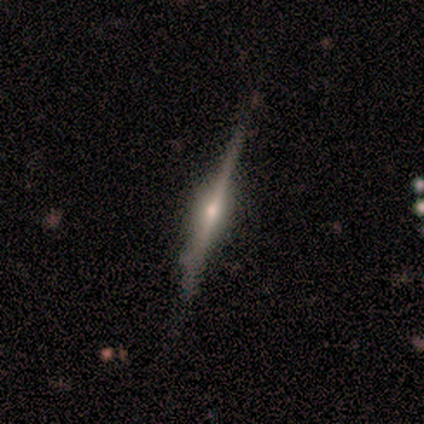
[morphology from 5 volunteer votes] Smooth or featured? 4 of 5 (80%) said featured or disk. Edge-on disk? 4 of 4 (100%) said yes. Edge-on bulge? 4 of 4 (100%) said rounded. Merging? 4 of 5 (80%) said none.